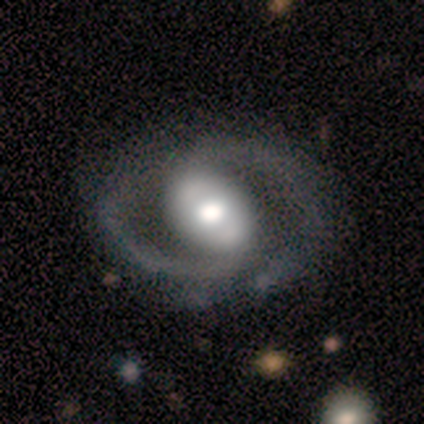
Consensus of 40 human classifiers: smooth_or_featured: featured or disk (p=0.78) [alt: smooth p=0.20]
disk_edge_on: no (p=0.97) [alt: yes p=0.03]
bar: no (p=0.40) [alt: strong p=0.33]
has_spiral_arms: yes (p=0.90) [alt: no p=0.10]
spiral_winding: medium (p=0.67) [alt: tight p=0.26]
spiral_arm_count: 2 (p=1.00)
bulge_size: large (p=0.47) [alt: moderate p=0.40]
merging: none (p=0.59) [alt: major disturbance p=0.13]